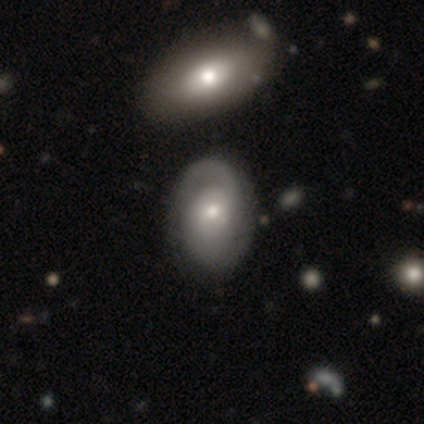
Smooth or featured?
  - featured or disk: 68% *
  - smooth: 32%
  - star or artifact: 0%
Edge-on disk?
  - no: 100% *
  - yes: 0%
Bar?
  - no: 88% *
  - weak: 12%
  - strong: 0%
Spiral arms?
  - yes: 88% *
  - no: 12%
Spiral winding?
  - tight: 45% *
  - medium: 36%
  - loose: 18%
Spiral arm count?
  - 2: 50% *
  - can't tell: 27%
  - 1: 23%
  - 3: 0%
  - 4: 0%
  - more than 4: 0%
Bulge size?
  - moderate: 64% *
  - small: 32%
  - none: 4%
  - dominant: 0%
  - large: 0%
Merging?
  - merger: 35% *
  - none: 30%
  - minor disturbance: 14%
  - major disturbance: 0%